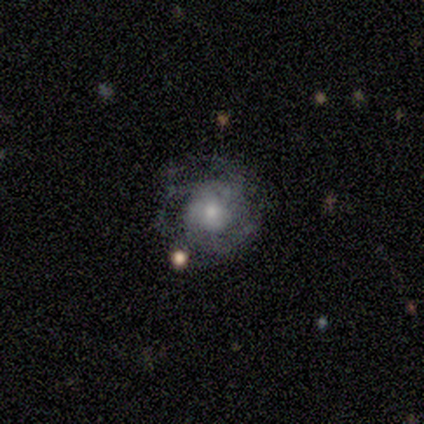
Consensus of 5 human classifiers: smooth_or_featured: smooth (p=0.40) [tied with: featured or disk p=0.40]
how_rounded: round (p=1.00)
merging: none (p=0.50) [tied with: minor disturbance p=0.50]